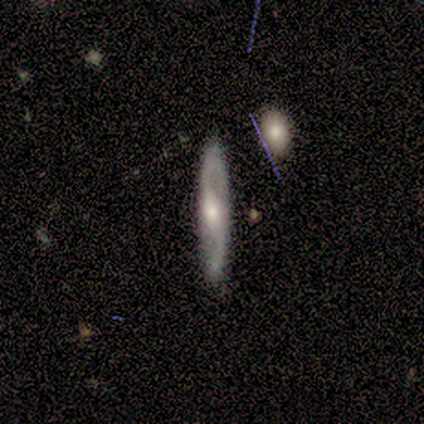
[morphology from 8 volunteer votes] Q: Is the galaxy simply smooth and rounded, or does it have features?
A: featured or disk — 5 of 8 (62%).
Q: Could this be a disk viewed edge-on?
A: no — 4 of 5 (80%).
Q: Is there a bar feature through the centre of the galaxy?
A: strong — 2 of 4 (50%, tied with no).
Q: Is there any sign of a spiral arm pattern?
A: yes — 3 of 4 (75%).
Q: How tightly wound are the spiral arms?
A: loose — 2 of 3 (67%).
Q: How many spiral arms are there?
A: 2 — 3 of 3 (100%).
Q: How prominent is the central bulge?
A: moderate — 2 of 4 (50%, tied with small).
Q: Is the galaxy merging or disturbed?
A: none — 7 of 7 (100%).